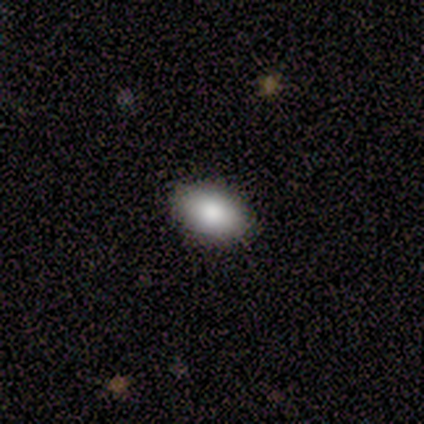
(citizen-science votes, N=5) smooth-or-featured: smooth: 100% | featured or disk: 0% | star or artifact: 0%
  how-rounded: in between: 100% | round: 0% | cigar-shaped: 0%
  merging: none: 100% | minor disturbance: 0% | major disturbance: 0% | merger: 0%